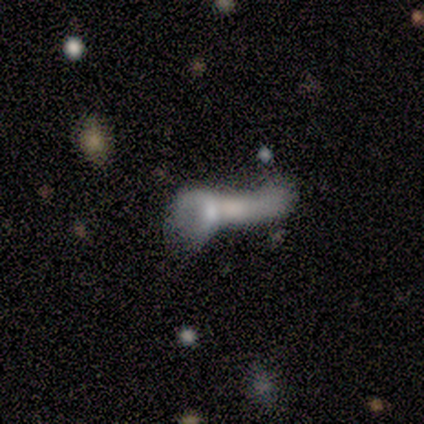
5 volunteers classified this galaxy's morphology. A smooth galaxy with no disk features (60%) that is cigar-shaped (67%).

Vote fractions:
- Smooth or featured? smooth: 60% / featured or disk: 40% / star or artifact: 0%
- How rounded? cigar-shaped: 67% / in between: 33% / round: 0%
- Merging? none: 40% (tied) / major disturbance: 40% (tied) / merger: 20% / minor disturbance: 0%